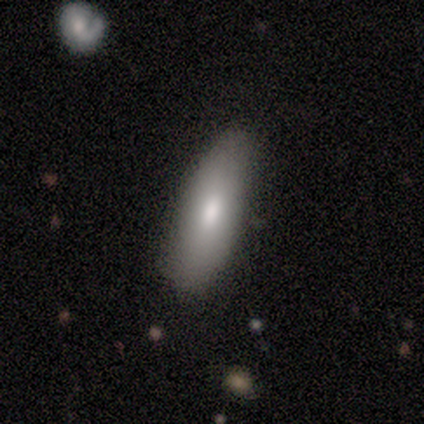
A smooth galaxy with no disk features (60%) that is in between round and cigar-shaped (100%).

Vote fractions:
- Smooth or featured? smooth: 60% / featured or disk: 20% / star or artifact: 20%
- How rounded? in between: 100% / round: 0% / cigar-shaped: 0%
- Merging? none: 75% / minor disturbance: 25% / major disturbance: 0% / merger: 0%